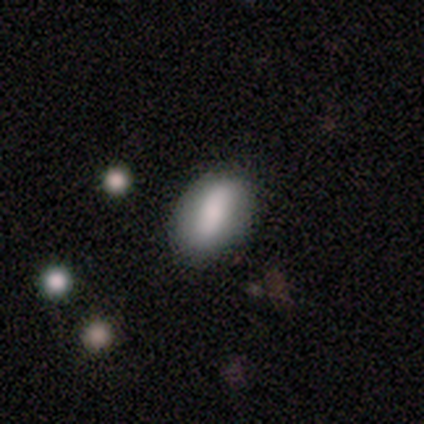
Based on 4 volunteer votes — smooth 75%, featured or disk 25%, star or artifact 0%. Down the decision tree: how rounded — in between (67%); merging — none (100%).